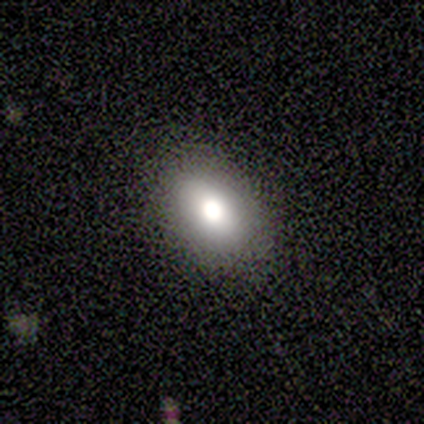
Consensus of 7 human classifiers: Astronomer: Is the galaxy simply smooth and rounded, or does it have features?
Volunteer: smooth — 71%.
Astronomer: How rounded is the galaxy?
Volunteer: in between — 100%.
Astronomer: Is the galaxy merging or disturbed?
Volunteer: none — 71%.